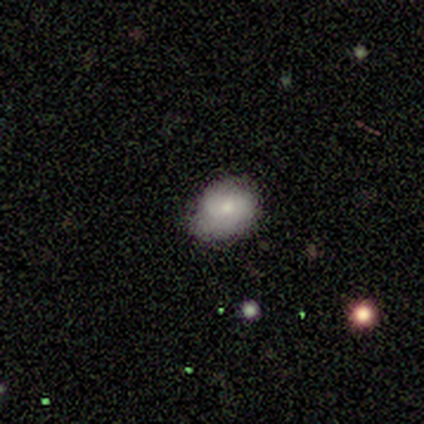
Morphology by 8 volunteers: Smooth or featured: smooth — 50% (tied with featured or disk — 50%)
How rounded: in between — 75% (round — 25%)
Merging: none — 88% (minor disturbance — 12%)